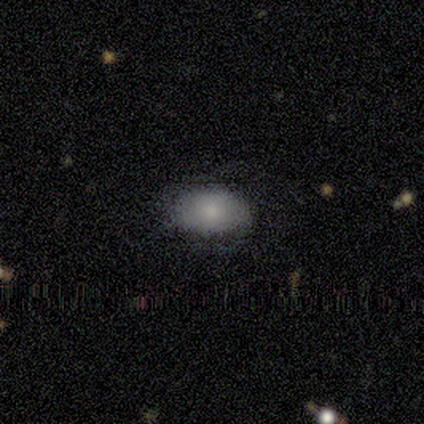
Smooth or featured? smooth (100%)
How rounded? in between (100%)
Merging? none (75%)